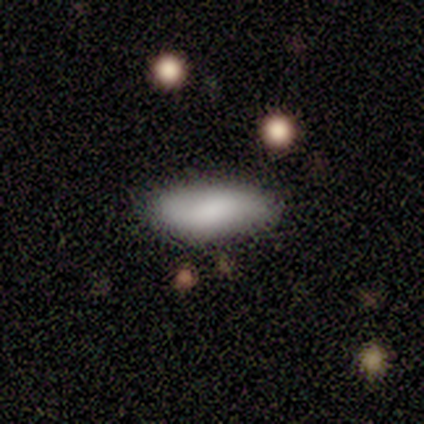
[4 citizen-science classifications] Q: Smooth or featured?
A: smooth (75%); runner-up: star or artifact (25%)
Q: How rounded?
A: in between (67%); runner-up: cigar-shaped (33%)
Q: Merging?
A: none (67%); runner-up: minor disturbance (33%)